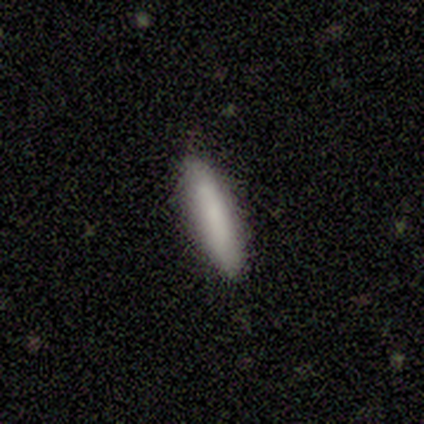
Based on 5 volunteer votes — Smooth or featured? smooth (60%)
How rounded? cigar-shaped (100%)
Merging? none (100%)